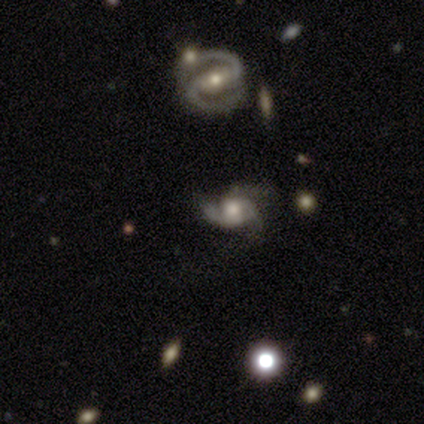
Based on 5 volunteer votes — featured or disk 100%, smooth 0%, star or artifact 0%. Down the decision tree: edge-on disk — no (100%); bar — no (60%); spiral arms — yes (100%); spiral arm count — 2 (60%); spiral winding — medium (80%); bulge size — large (40%, tied with moderate); merging — none (80%).